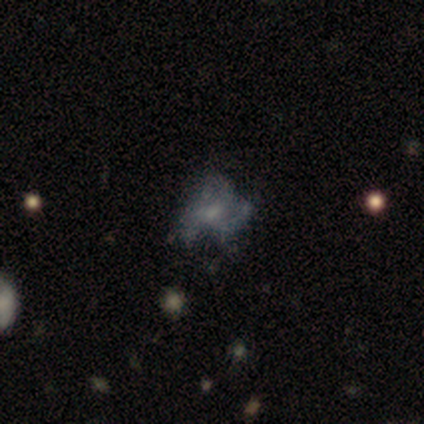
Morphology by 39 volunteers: featured or disk 62%, smooth 23%, star or artifact 15%. Down the decision tree: edge-on disk — no (100%); bar — no (75%); spiral arms — yes (62%); spiral arm count — 3 (67%); spiral winding — loose (53%); bulge size — small (62%); merging — none (48%).